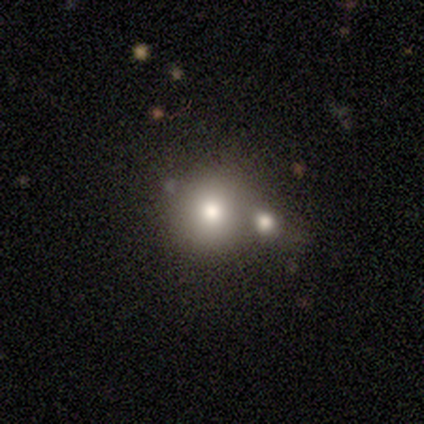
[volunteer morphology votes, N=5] Smooth or featured: smooth — 80% (featured or disk — 20%)
How rounded: round — 100%
Merging: none — 60% (merger — 40%)